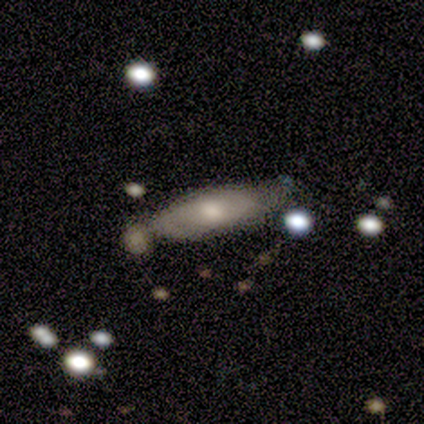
smooth_or_featured: featured or disk (p=0.50) [alt: smooth p=0.42]
disk_edge_on: no (p=0.75) [alt: yes p=0.25]
bar: no (p=0.53) [alt: weak p=0.47]
has_spiral_arms: yes (p=0.80) [alt: no p=0.20]
spiral_winding: medium (p=0.50) [alt: tight p=0.33]
spiral_arm_count: 2 (p=0.83) [alt: 1 p=0.08]
bulge_size: moderate (p=0.60) [alt: large p=0.20]
merging: none (p=0.54) [alt: merger p=0.22]